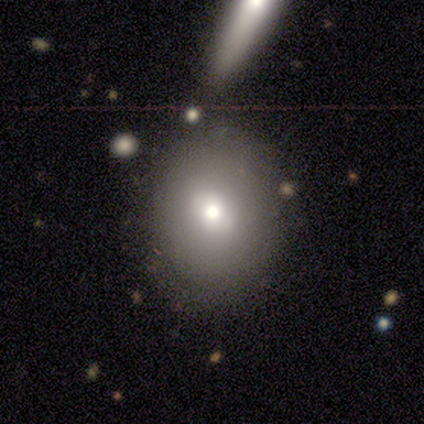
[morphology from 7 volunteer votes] smooth-or-featured: smooth: 57% | star or artifact: 29% | featured or disk: 14%
  how-rounded: round: 75% | in between: 25% | cigar-shaped: 0%
  merging: none: 60% | minor disturbance: 20% | merger: 20% | major disturbance: 0%